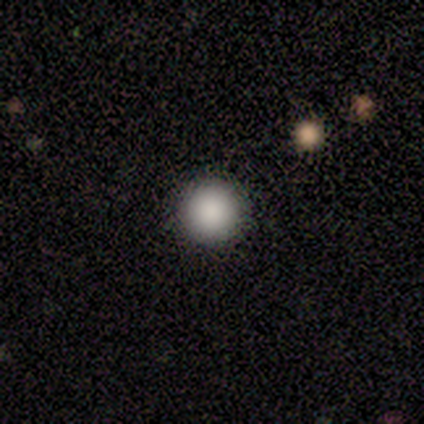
smooth-or-featured: smooth: 100% | featured or disk: 0% | star or artifact: 0%
  how-rounded: round: 75% | in between: 25% | cigar-shaped: 0%
  merging: none: 100% | minor disturbance: 0% | major disturbance: 0% | merger: 0%